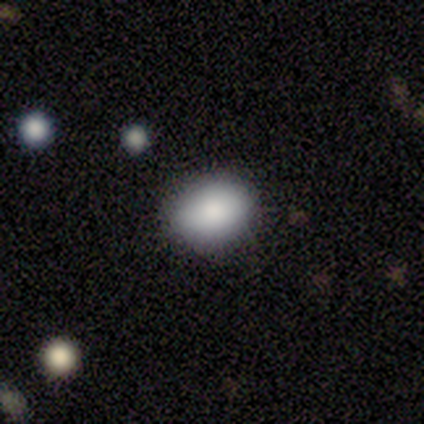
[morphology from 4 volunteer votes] Smooth or featured?
  - smooth: 100% *
  - featured or disk: 0%
  - star or artifact: 0%
How rounded?
  - round: 50% * (tied)
  - in between: 50% * (tied)
  - cigar-shaped: 0%
Merging?
  - none: 100% *
  - minor disturbance: 0%
  - major disturbance: 0%
  - merger: 0%